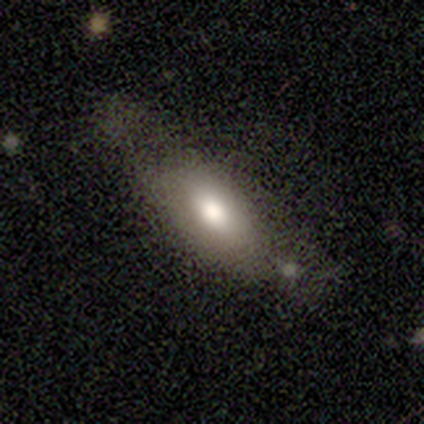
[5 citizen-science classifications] Smooth or featured: smooth — 80% (featured or disk — 20%)
How rounded: in between — 100%
Merging: minor disturbance — 40% (tied with major disturbance — 40%)